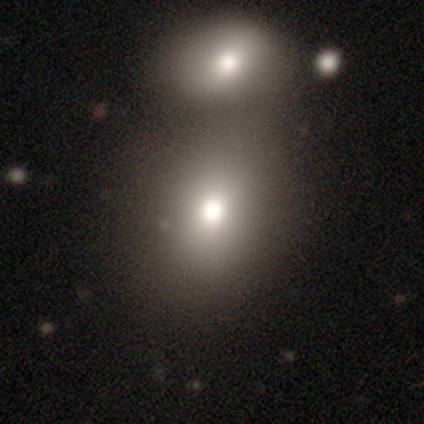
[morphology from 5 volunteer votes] A smooth galaxy with no disk features (60%) that is round (100%). Merging: merger (67%).